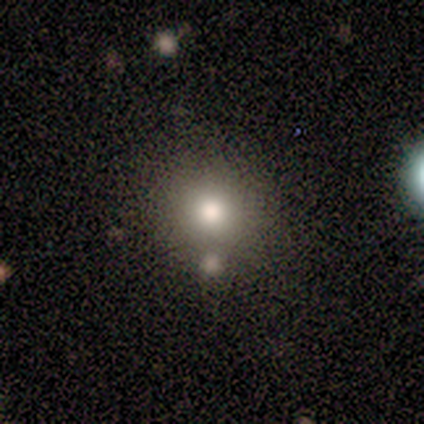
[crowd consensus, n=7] Morphology: type=smooth (86%); roundness=round (83%); merging=none (86%).